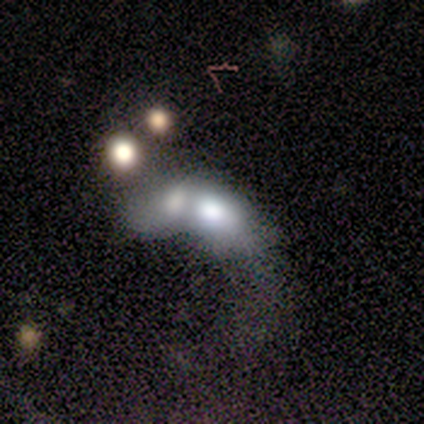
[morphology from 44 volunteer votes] featured or disk 57%, smooth 32%, star or artifact 11%. Down the decision tree: edge-on disk — no (100%); bar — no (100%); spiral arms — no (88%); bulge size — large (60%); merging — merger (82%).